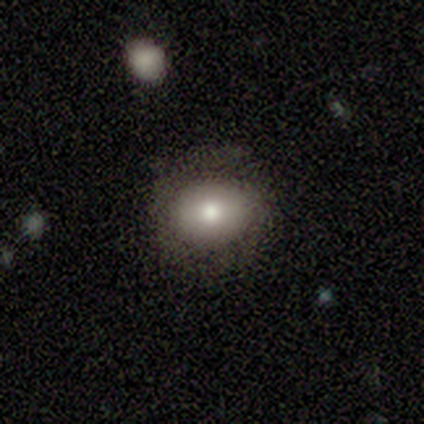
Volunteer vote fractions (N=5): Overall: smooth (60%; featured or disk 20%). How rounded: in between (67%; round 33%). Merging: none (100%).